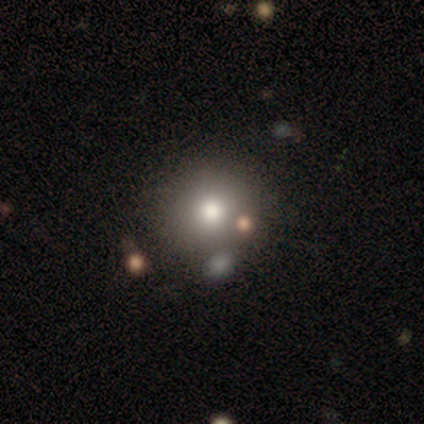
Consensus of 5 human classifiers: Smooth or featured? smooth (60%)
How rounded? round (100%)
Merging? none (100%)